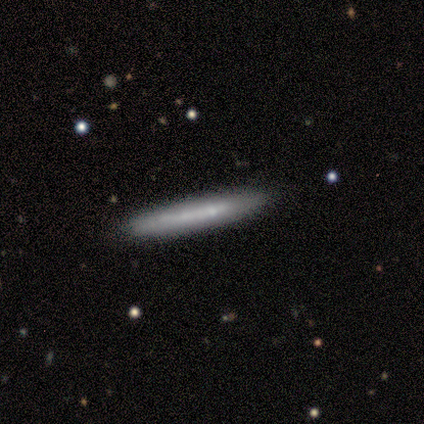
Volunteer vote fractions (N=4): smooth_or_featured: featured or disk (p=0.50) [tied with: star or artifact p=0.50]
disk_edge_on: yes (p=0.50) [tied with: no p=0.50]
edge_on_bulge: none (p=1.00)
merging: none (p=0.50) [tied with: major disturbance p=0.50]